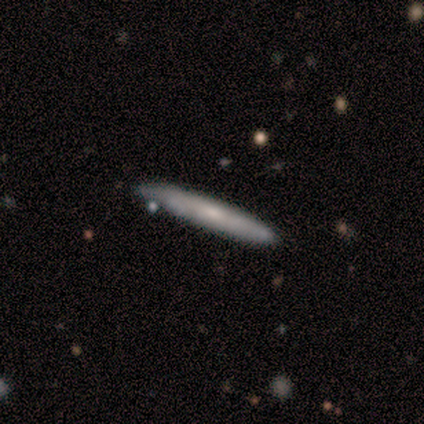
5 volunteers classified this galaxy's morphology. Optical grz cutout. It shows a smooth galaxy with no disk features (60%) that is cigar-shaped (100%). Merging: none (60%).